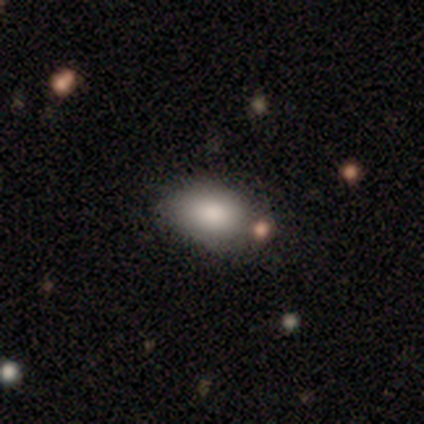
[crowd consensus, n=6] Morphology: type=smooth (100%); roundness=in between (100%); merging=none (67%).